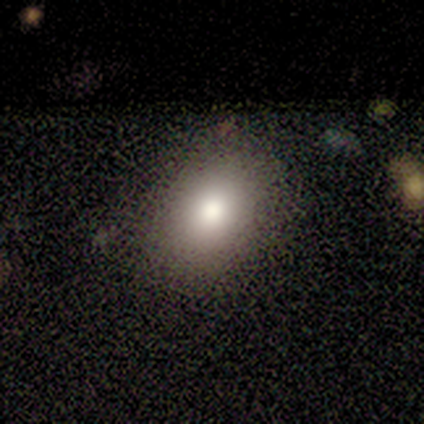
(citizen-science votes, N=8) Smooth or featured? smooth (88%)
How rounded? in between (71%)
Merging? none (88%)